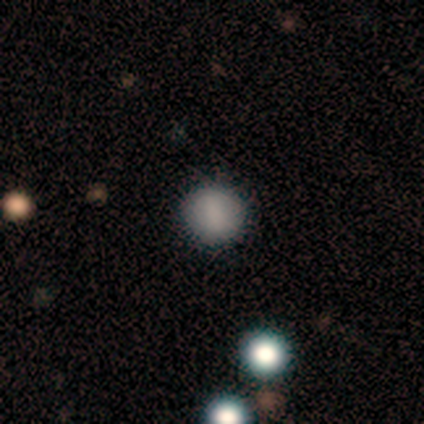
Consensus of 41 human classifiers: smooth_or_featured: smooth (p=0.71) [alt: star or artifact p=0.17]
how_rounded: round (p=0.93) [alt: in between p=0.07]
merging: none (p=0.91) [alt: minor disturbance p=0.06]